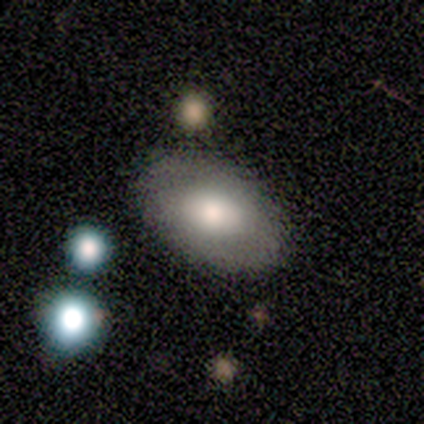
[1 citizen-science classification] Q: Smooth or featured?
A: featured or disk (100%)
Q: Edge-on disk?
A: no (100%)
Q: Bar?
A: weak (100%)
Q: Spiral arms?
A: yes (100%)
Q: Spiral winding?
A: tight (100%)
Q: Spiral arm count?
A: 2 (100%)
Q: Bulge size?
A: moderate (100%)
Q: Merging?
A: none (100%)